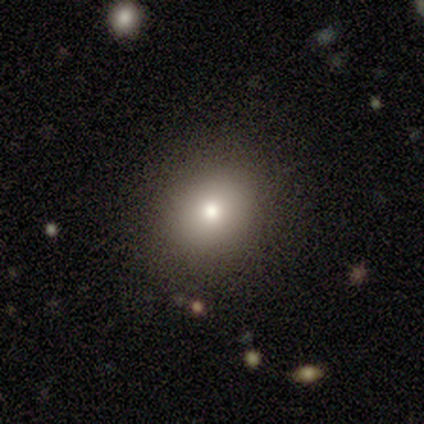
Smooth or featured? 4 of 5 (80%) said smooth. How rounded? 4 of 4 (100%) said round. Merging? 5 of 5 (100%) said none.